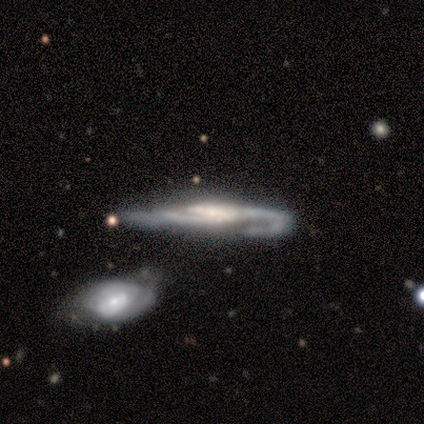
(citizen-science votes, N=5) A featured or disk galaxy (100%) viewed edge-on (60%) with a boxy central bulge (67%). Merging: none (40%, tied with merger).